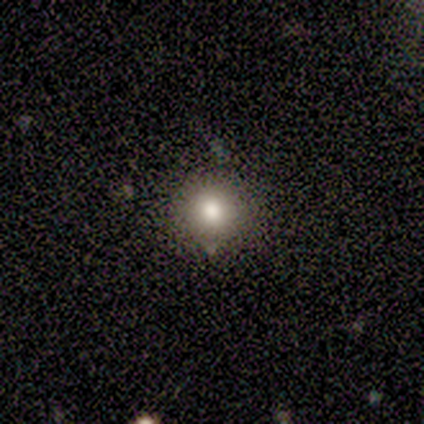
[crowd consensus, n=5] smooth_or_featured: smooth (p=0.60) [alt: star or artifact p=0.40]
how_rounded: round (p=1.00)
merging: none (p=1.00)